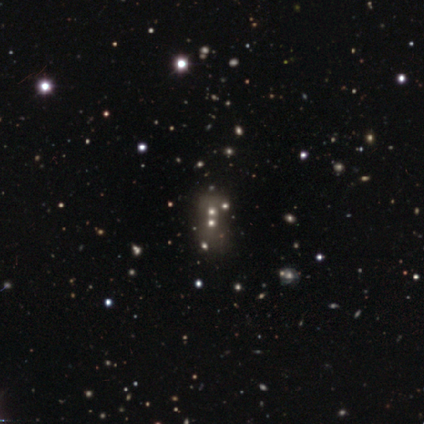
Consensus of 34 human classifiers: smooth_or_featured: smooth (p=0.44) [alt: star or artifact p=0.35]
how_rounded: round (p=0.60) [alt: in between p=0.40]
merging: merger (p=0.59)